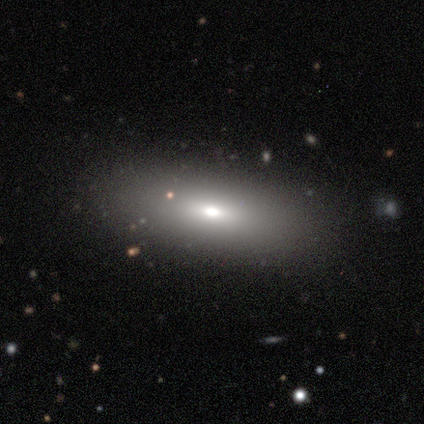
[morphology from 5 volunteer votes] type=smooth (80%); roundness=in between (100%); merging=none (75%).